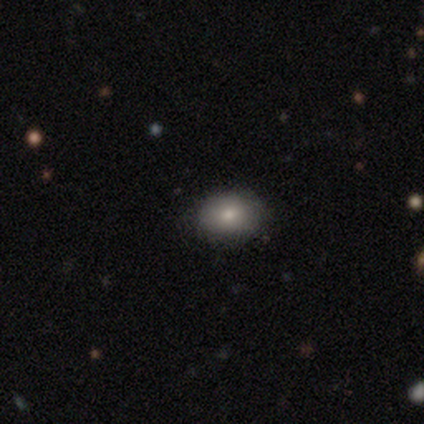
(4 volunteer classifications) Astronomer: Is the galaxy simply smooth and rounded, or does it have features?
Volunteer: smooth — 100%.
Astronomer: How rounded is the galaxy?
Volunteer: in between — 75%.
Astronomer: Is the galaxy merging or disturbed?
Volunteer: none — 100%.